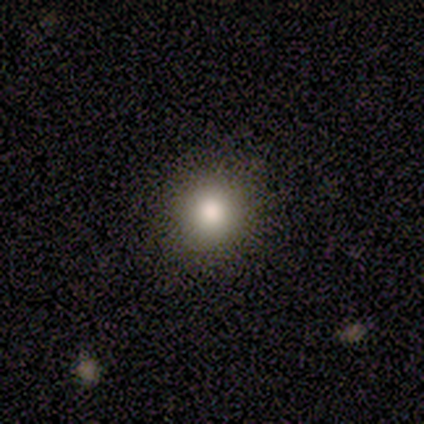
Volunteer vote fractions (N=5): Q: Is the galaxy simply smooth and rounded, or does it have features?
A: smooth — 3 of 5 (60%).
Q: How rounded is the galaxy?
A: round — 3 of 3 (100%).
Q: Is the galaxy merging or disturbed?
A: none — 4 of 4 (100%).